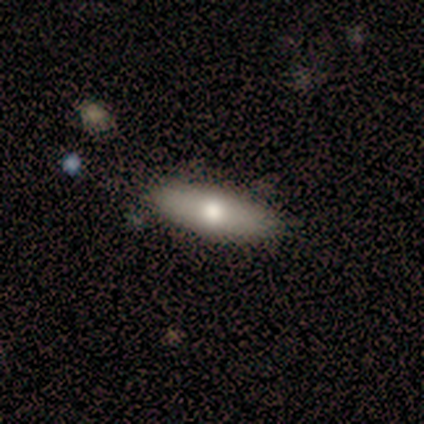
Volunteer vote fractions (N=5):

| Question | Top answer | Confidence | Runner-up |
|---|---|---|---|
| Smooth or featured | smooth | 60% | featured or disk (20%) |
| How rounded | in between | 67% | cigar-shaped (33%) |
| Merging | none | 100% | — |